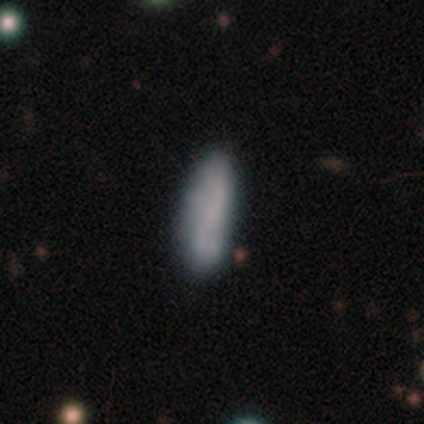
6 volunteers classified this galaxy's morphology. Smooth or featured? smooth (83%)
How rounded? in between (60%)
Merging? none (100%)